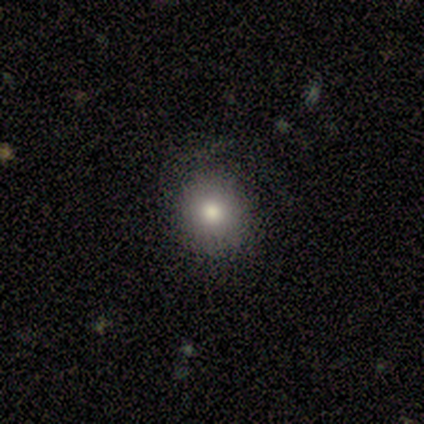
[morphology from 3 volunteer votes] Overall: smooth (67%; star or artifact 33%). How rounded: round (100%). Merging: none (100%).